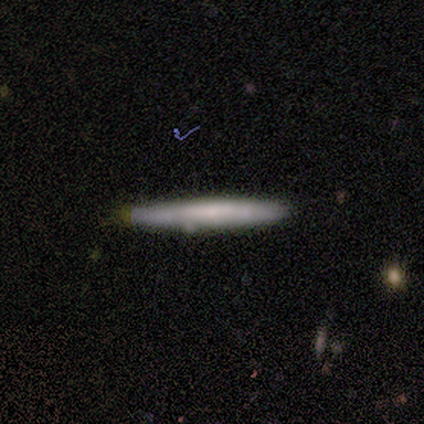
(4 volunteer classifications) Smooth or featured?
  - smooth: 75% *
  - featured or disk: 25%
  - star or artifact: 0%
How rounded?
  - cigar-shaped: 100% *
  - round: 0%
  - in between: 0%
Merging?
  - none: 75% *
  - minor disturbance: 25%
  - major disturbance: 0%
  - merger: 0%